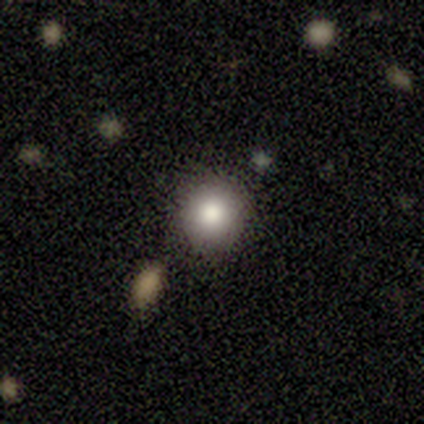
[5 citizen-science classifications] This appears to be a smooth galaxy with no disk features (80%) that is round (75%). Merging: none (75%).